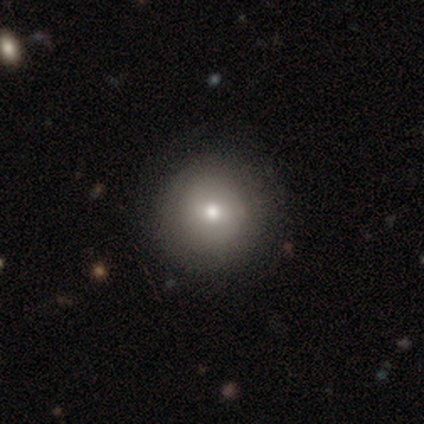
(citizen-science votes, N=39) smooth-or-featured: smooth: 82% | featured or disk: 15% | star or artifact: 3%
  how-rounded: round: 100% | in between: 0% | cigar-shaped: 0%
  merging: none: 89% | minor disturbance: 8% | major disturbance: 3% | merger: 0%